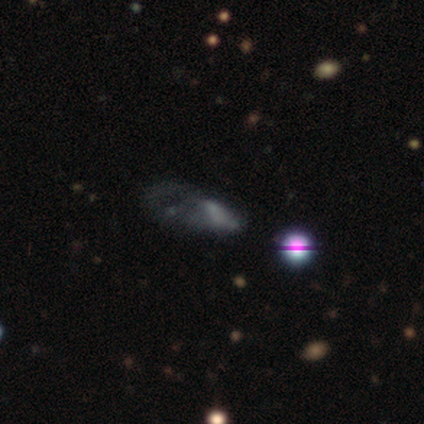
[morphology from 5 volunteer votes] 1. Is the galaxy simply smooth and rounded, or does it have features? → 60% smooth, 40% featured or disk, 0% star or artifact.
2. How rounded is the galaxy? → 67% in between, 33% cigar-shaped, 0% round.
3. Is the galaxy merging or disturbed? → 40% major disturbance, 20% none, 20% minor disturbance, 20% merger.